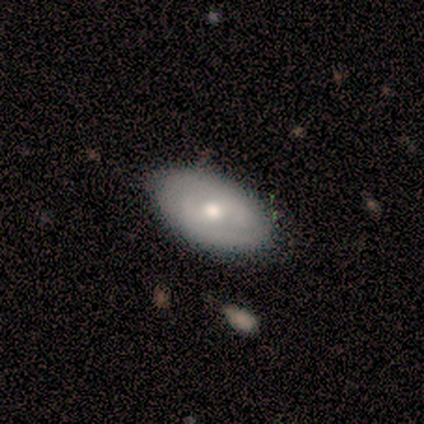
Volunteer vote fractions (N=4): smooth 50% (tied), featured or disk 50% (tied), star or artifact 0%. Down the decision tree: how rounded — in between (100%); merging — none (75%).